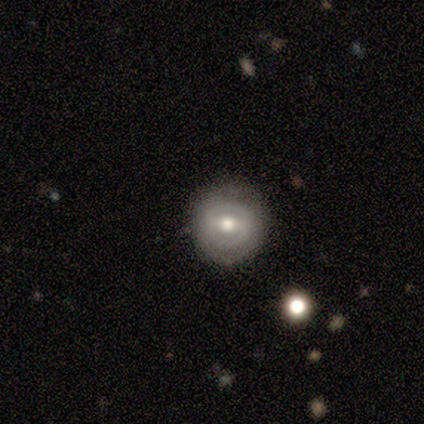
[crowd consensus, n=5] A smooth galaxy with no disk features (60%) that is round (67%).

Vote fractions:
- Smooth or featured? smooth: 60% / featured or disk: 40% / star or artifact: 0%
- How rounded? round: 67% / in between: 33% / cigar-shaped: 0%
- Merging? none: 100% / minor disturbance: 0% / major disturbance: 0% / merger: 0%